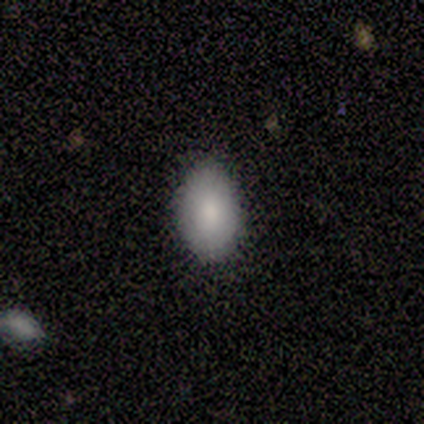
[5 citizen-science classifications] smooth_or_featured: smooth (p=0.80) [alt: featured or disk p=0.20]
how_rounded: in between (p=1.00)
merging: none (p=0.80) [alt: minor disturbance p=0.20]